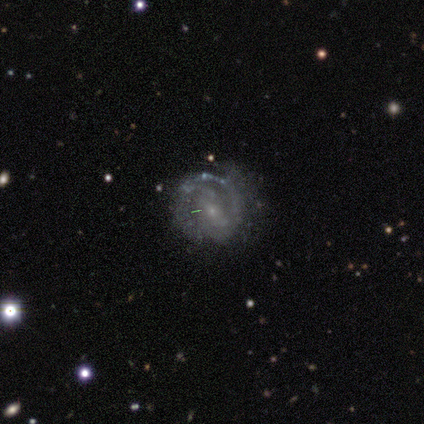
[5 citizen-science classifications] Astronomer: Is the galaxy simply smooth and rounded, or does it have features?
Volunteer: featured or disk — 80%.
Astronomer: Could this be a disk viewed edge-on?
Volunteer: no — 75%.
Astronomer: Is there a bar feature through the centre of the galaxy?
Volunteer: weak — 67%.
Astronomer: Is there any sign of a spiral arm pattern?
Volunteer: yes — 100%.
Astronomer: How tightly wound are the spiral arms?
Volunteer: tight — 67%.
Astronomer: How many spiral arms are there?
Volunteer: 2 — 33%, tied with 3 and can't tell at 33%.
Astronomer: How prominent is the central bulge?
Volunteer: small — 100%.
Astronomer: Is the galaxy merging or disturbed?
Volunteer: none — 75%.